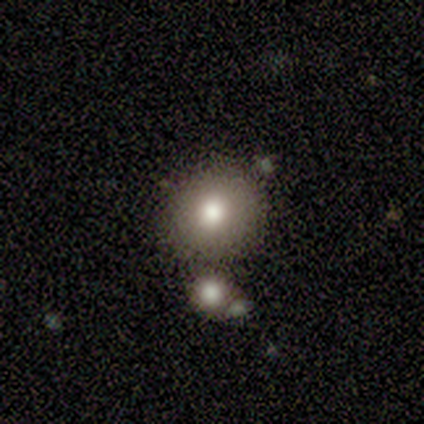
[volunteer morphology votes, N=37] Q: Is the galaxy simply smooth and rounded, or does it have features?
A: smooth — 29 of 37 (78%).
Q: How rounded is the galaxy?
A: round — 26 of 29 (90%).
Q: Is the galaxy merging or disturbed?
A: none — 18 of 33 (55%).